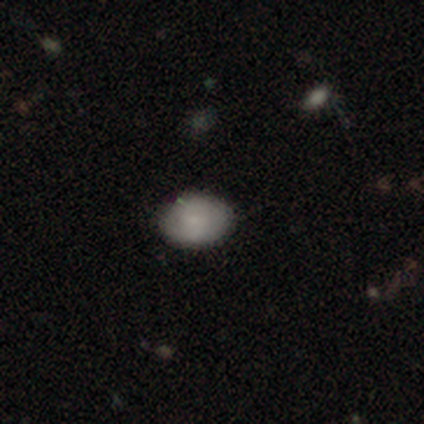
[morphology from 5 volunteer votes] type=smooth (100%); roundness=in between (100%); merging=none (100%).